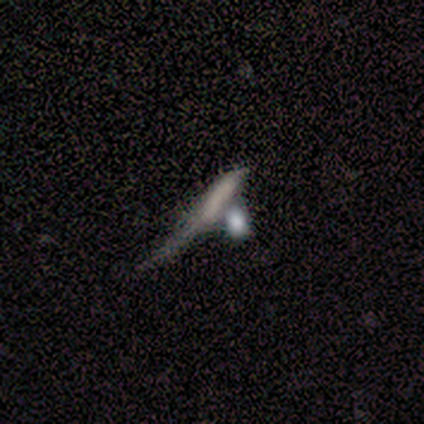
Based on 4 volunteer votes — Morphology: type=smooth (50%); roundness=cigar-shaped (100%); merging=major disturbance (67%).